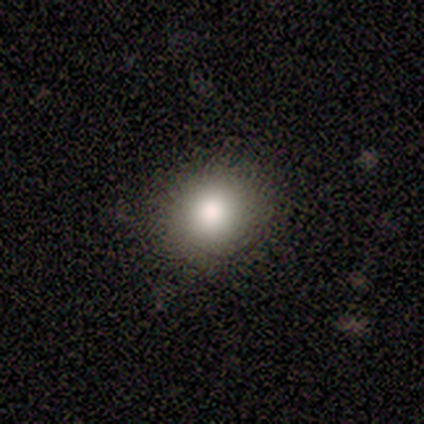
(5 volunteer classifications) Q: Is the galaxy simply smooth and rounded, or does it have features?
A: smooth — 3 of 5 (60%).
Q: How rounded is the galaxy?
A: in between — 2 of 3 (67%).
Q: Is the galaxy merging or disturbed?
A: none — 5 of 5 (100%).